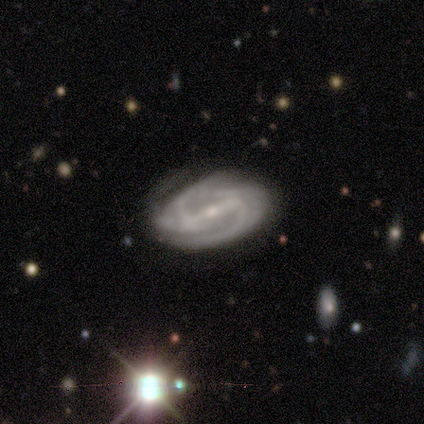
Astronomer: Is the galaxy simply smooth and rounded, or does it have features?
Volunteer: featured or disk — 100%.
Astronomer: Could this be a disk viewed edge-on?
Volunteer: no — 80%.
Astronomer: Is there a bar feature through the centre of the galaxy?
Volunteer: strong — 75%.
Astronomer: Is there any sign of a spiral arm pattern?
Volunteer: yes — 100%.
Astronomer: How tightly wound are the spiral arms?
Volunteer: tight — 50%, tied with medium at 50%.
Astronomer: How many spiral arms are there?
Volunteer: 2 — 75%.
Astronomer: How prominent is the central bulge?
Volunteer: small — 100%.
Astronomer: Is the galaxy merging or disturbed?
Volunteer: minor disturbance — 60% (runner-up: none, 40%).